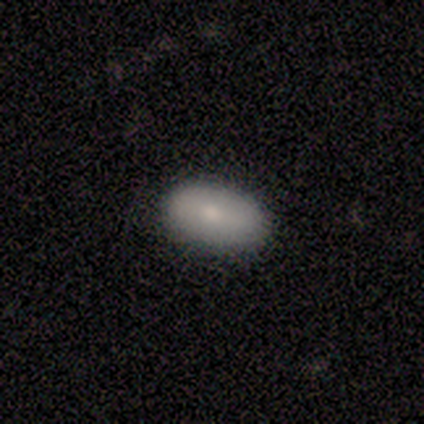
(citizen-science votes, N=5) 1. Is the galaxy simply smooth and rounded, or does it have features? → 80% smooth, 20% featured or disk, 0% star or artifact.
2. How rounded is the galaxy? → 100% in between, 0% round, 0% cigar-shaped.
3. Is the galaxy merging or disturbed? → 100% none, 0% minor disturbance, 0% major disturbance, 0% merger.